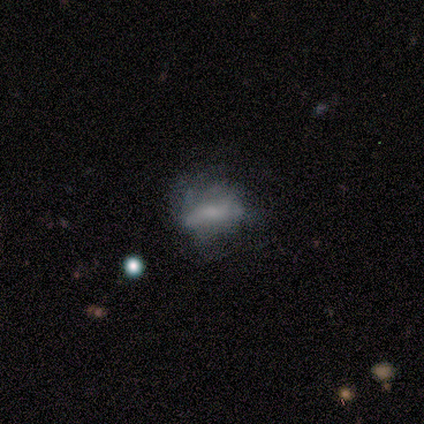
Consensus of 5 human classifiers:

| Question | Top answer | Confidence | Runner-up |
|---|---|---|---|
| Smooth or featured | featured or disk | 60% | smooth (40%) |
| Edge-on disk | no | 100% | — |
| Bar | no | 100% | — |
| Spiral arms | no | 100% | — |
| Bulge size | none | 100% | — |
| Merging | none | 60% | minor disturbance (20%) |